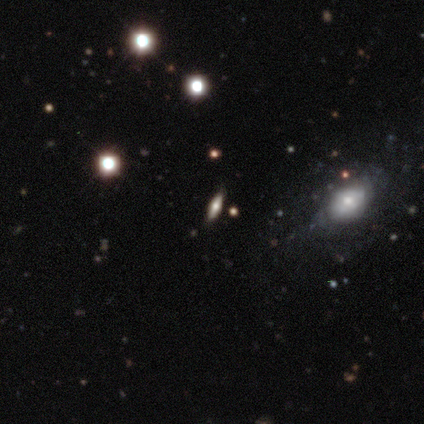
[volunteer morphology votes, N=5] type=smooth (80%); roundness=cigar-shaped (75%); merging=none (60%).